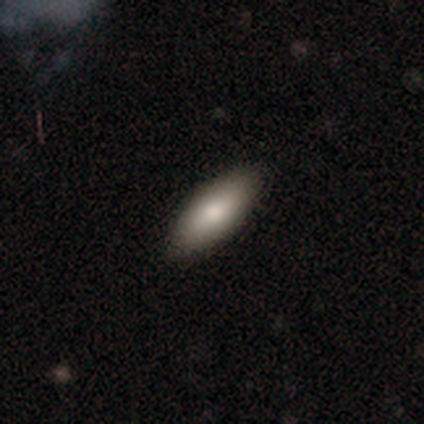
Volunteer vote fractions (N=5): A smooth galaxy with no disk features (100%) that is in between round and cigar-shaped (80%). Merging: none (100%).